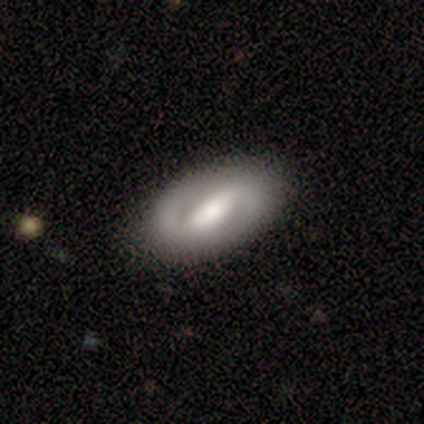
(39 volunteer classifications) Smooth or featured? 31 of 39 (79%) said featured or disk. Edge-on disk? 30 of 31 (97%) said no. Bar? 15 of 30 (50%) said weak. Spiral arms? 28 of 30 (93%) said yes. Spiral winding? 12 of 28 (43%) said medium. Spiral arm count? 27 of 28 (96%) said 2. Bulge size? 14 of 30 (47%) said moderate. Merging? 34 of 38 (89%) said none.